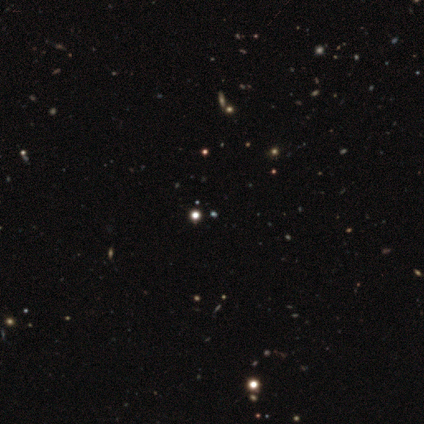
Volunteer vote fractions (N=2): Smooth or featured? smooth (50%, tied with star or artifact)
How rounded? in between (100%)
Merging? none (100%)